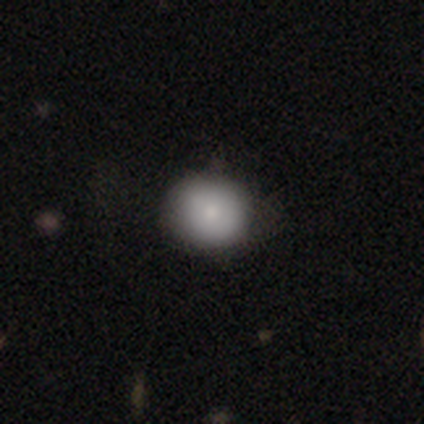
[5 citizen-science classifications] This appears to be a smooth galaxy with no disk features (60%) that is round (67%). Merging: none (50%, tied with minor disturbance).